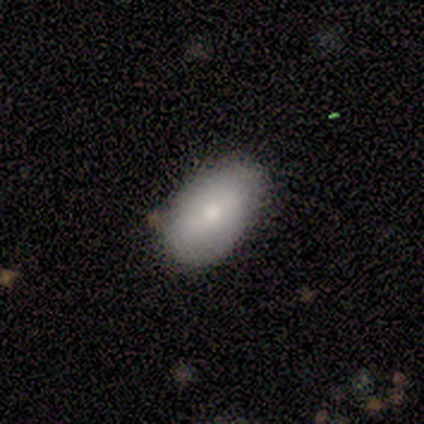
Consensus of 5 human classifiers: Smooth or featured: smooth — 80% (featured or disk — 20%)
How rounded: in between — 75% (cigar-shaped — 25%)
Merging: none — 80% (minor disturbance — 20%)